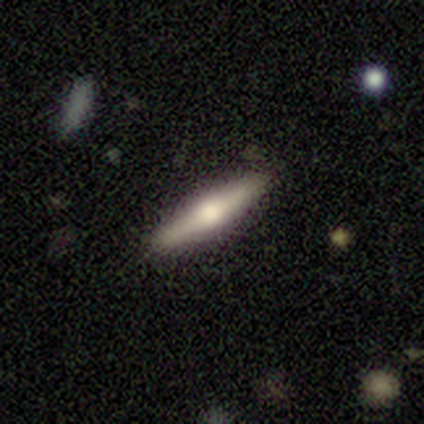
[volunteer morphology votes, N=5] Smooth or featured: featured or disk — 60% (smooth — 40%)
Edge-on disk: yes — 100%
Edge-on bulge: rounded — 100%
Merging: none — 100%